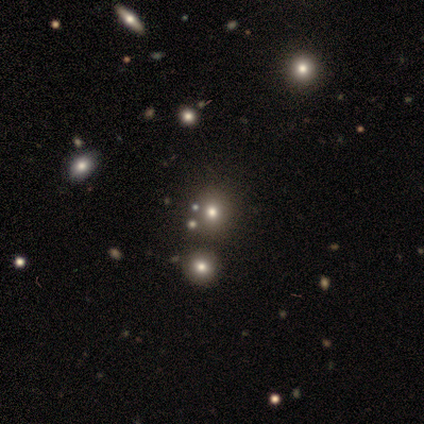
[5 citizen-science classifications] smooth_or_featured: star or artifact (p=0.60) [alt: smooth p=0.40]